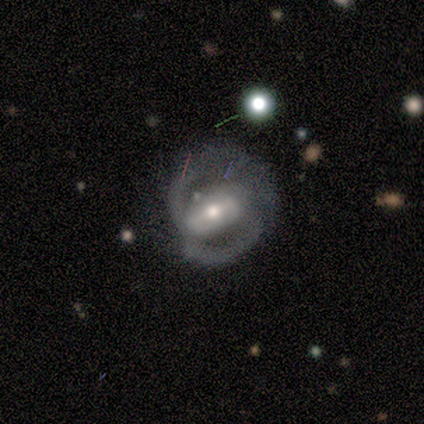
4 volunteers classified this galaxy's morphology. Smooth or featured? 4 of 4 (100%) said featured or disk. Edge-on disk? 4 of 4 (100%) said no. Bar? 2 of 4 (50%) said no. Spiral arms? 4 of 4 (100%) said yes. Spiral winding? 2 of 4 (50%) said tight. Spiral arm count? 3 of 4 (75%) said 2. Bulge size? 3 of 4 (75%) said moderate. Merging? 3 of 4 (75%) said none.